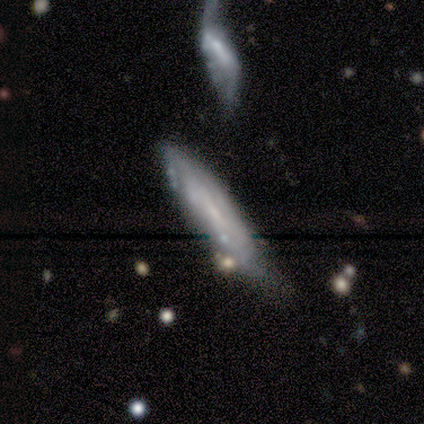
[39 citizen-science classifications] smooth_or_featured: featured or disk (p=0.51) [alt: smooth p=0.33]
disk_edge_on: no (p=0.55) [alt: yes p=0.45]
bar: no (p=0.82) [alt: strong p=0.09]
has_spiral_arms: no (p=0.64) [alt: yes p=0.36]
bulge_size: small (p=0.73) [alt: none p=0.27]
merging: minor disturbance (p=0.42) [alt: none p=0.36]